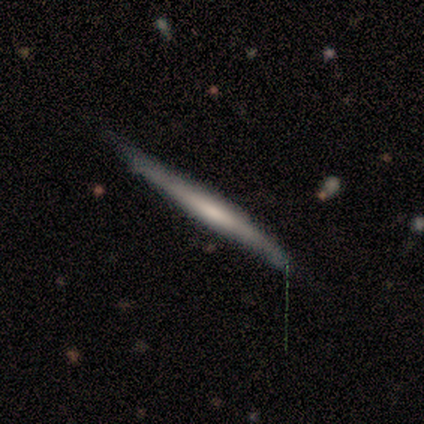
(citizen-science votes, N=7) A smooth galaxy with no disk features (57%) that is cigar-shaped (100%).

Vote fractions:
- Smooth or featured? smooth: 57% / featured or disk: 43% / star or artifact: 0%
- How rounded? cigar-shaped: 100% / round: 0% / in between: 0%
- Merging? none: 57% / minor disturbance: 43% / major disturbance: 0% / merger: 0%